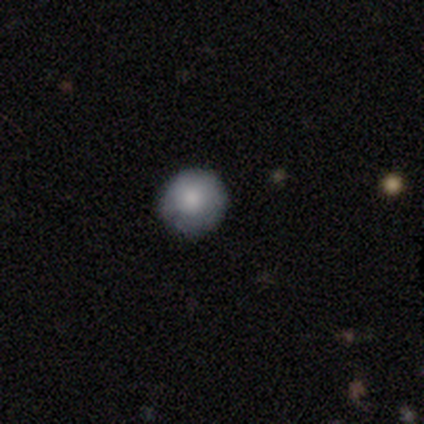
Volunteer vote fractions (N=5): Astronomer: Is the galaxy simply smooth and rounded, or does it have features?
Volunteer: smooth — 80%.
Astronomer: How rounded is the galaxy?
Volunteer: round — 100%.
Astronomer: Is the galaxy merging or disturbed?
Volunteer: none — 80%.